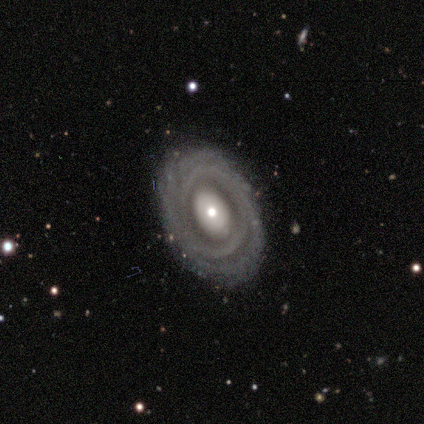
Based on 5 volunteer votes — smooth_or_featured: featured or disk (p=1.00)
disk_edge_on: no (p=1.00)
bar: no (p=1.00)
has_spiral_arms: yes (p=0.80) [alt: no p=0.20]
spiral_winding: tight (p=1.00)
spiral_arm_count: can't tell (p=0.75) [alt: 4 p=0.25]
bulge_size: moderate (p=0.40) [tied with: small p=0.40]
merging: none (p=1.00)